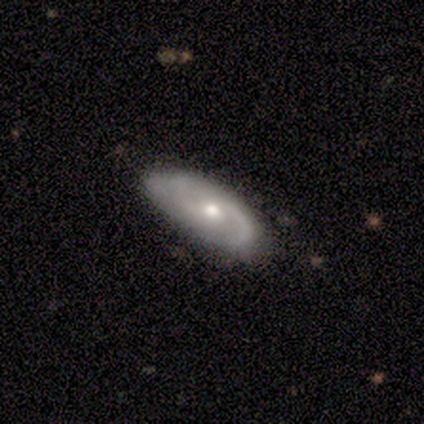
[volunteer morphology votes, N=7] Overall: featured or disk (57%; smooth 43%). Edge-on disk: no (100%). Bar: no (75%). Spiral arms: yes (100%). Spiral arm count: 2 (100%). Spiral winding: medium (50%, tied with loose). Bulge size: moderate (75%). Merging: none (57%; minor disturbance 29%).